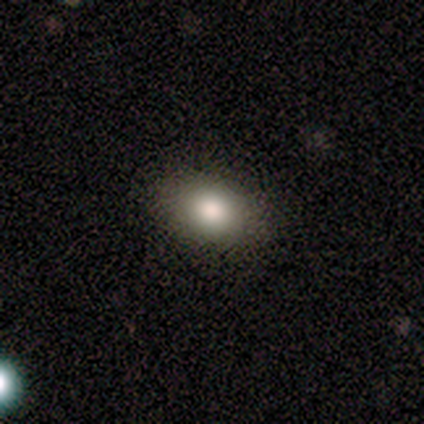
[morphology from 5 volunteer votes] smooth-or-featured: featured or disk: 60% | smooth: 40% | star or artifact: 0%
  disk-edge-on: no: 100% | yes: 0%
    bar: no: 100% | strong: 0% | weak: 0%
    has-spiral-arms: no: 100% | yes: 0%
    bulge-size: moderate: 67% | large: 33% | dominant: 0% | small: 0% | none: 0%
  merging: none: 100% | minor disturbance: 0% | major disturbance: 0% | merger: 0%